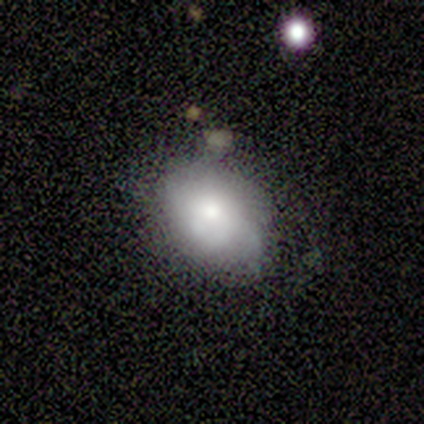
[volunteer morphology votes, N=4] This appears to be a smooth galaxy with no disk features (75%) that is in between round and cigar-shaped (100%). Merging: none (100%).